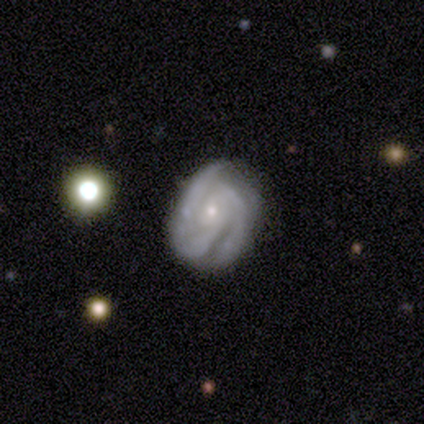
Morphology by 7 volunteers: Smooth or featured? featured or disk (71%)
Edge-on disk? no (100%)
Bar? no (60%)
Spiral arms? yes (100%)
Spiral winding? medium (80%)
Spiral arm count? 2 (100%)
Bulge size? small (100%)
Merging? none (71%)